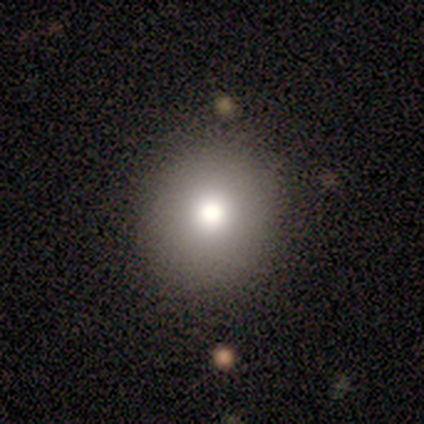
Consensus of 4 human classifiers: smooth 50% (tied), star or artifact 50% (tied), featured or disk 0%. Down the decision tree: how rounded — round (100%); merging — none (100%).